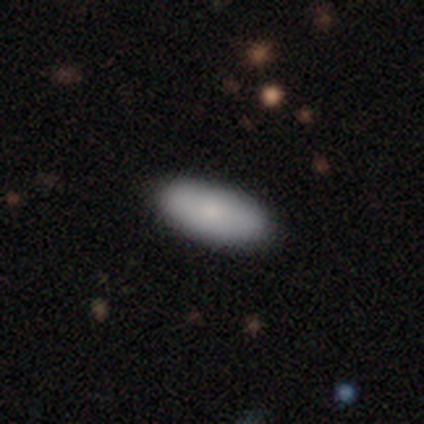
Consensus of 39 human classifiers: Smooth or featured? smooth (82%)
How rounded? in between (97%)
Merging? none (59%)